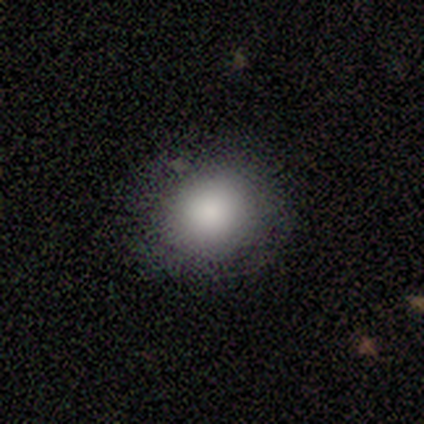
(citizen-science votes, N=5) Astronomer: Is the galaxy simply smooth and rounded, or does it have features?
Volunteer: smooth — 80%.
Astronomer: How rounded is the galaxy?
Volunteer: round — 75%.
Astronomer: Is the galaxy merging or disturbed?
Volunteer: none — 80%.